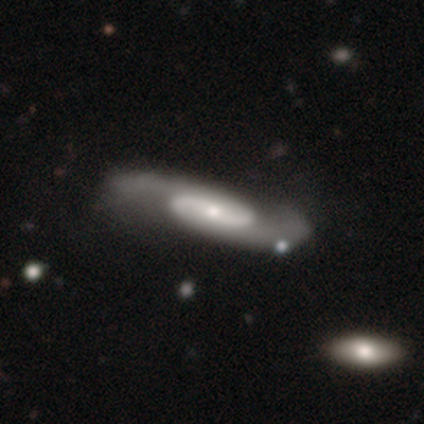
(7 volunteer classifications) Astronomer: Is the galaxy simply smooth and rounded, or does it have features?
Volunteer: featured or disk — 86%.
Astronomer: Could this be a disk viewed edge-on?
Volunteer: no — 83%.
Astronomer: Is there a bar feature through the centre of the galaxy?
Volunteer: strong — 60%.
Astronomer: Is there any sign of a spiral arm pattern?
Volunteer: yes — 100%.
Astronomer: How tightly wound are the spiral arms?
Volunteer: medium — 80%.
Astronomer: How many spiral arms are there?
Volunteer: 2 — 100%.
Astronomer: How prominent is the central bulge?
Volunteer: moderate — 40%, tied with small at 40%.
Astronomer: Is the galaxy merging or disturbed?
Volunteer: none — 57% (runner-up: minor disturbance, 43%).